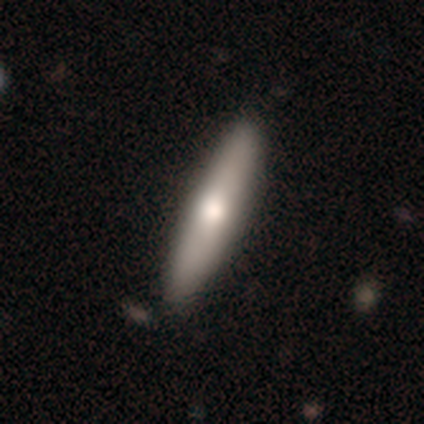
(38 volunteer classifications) Morphology: type=smooth (58%); roundness=cigar-shaped (86%); merging=none (62%).